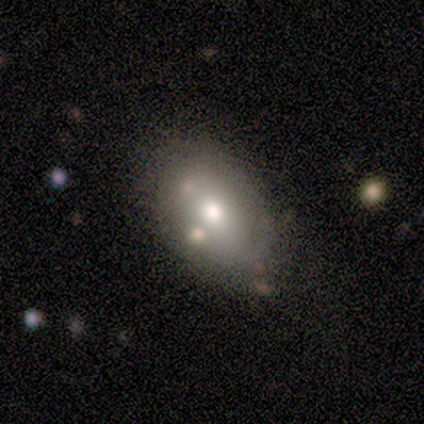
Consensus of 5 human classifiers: A star or artifact, not a galaxy (60%).